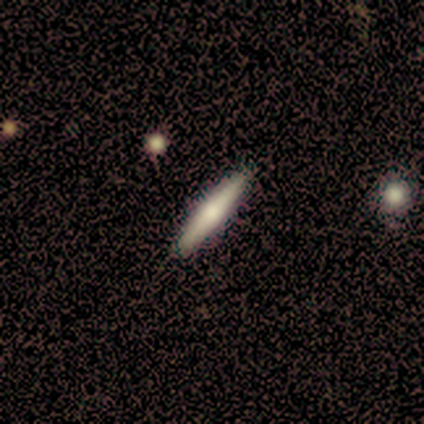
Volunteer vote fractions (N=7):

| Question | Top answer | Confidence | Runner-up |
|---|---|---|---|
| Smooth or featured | smooth | 71% | featured or disk (14%) |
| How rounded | cigar-shaped | 100% | — |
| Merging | none | 83% | minor disturbance (17%) |